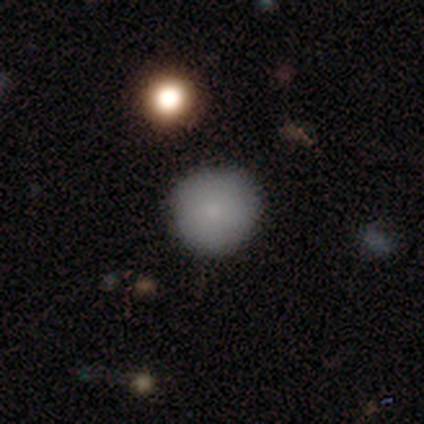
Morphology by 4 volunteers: A smooth galaxy with no disk features (75%) that is round (100%). Merging: none (75%).